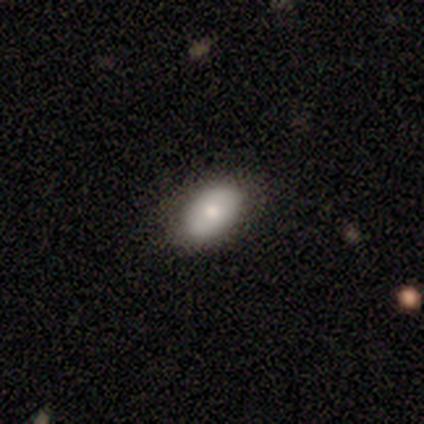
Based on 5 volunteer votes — Smooth or featured? 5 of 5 (100%) said smooth. How rounded? 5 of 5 (100%) said in between. Merging? 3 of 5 (60%) said none.